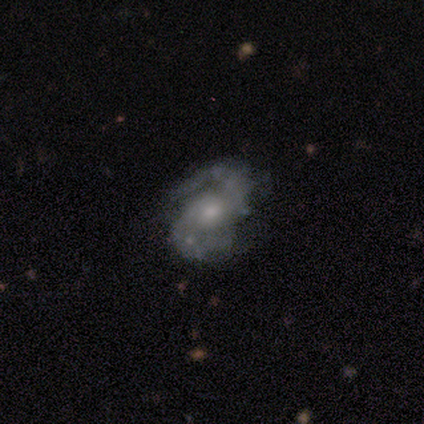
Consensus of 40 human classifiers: smooth-or-featured: featured or disk: 80% | smooth: 10% | star or artifact: 10%
  disk-edge-on: no: 97% | yes: 3%
    bar: no: 58% | weak: 35% | strong: 6%
    has-spiral-arms: yes: 97% | no: 3%
      spiral-winding: medium: 60% | tight: 30% | loose: 10%
      spiral-arm-count: 2: 97% | 1: 3% | 3: 0% | 4: 0% | more than 4: 0% | can't tell: 0%
    bulge-size: moderate: 48% | small: 29% | large: 13% | none: 10% | dominant: 0%
  merging: none: 67% | minor disturbance: 19% | major disturbance: 11% | merger: 3%